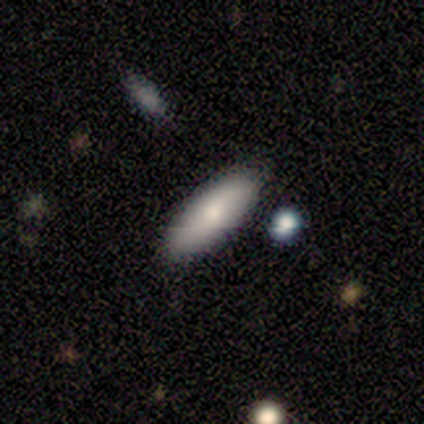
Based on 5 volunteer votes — Smooth or featured? smooth (60%)
How rounded? in between (67%)
Merging? none (100%)